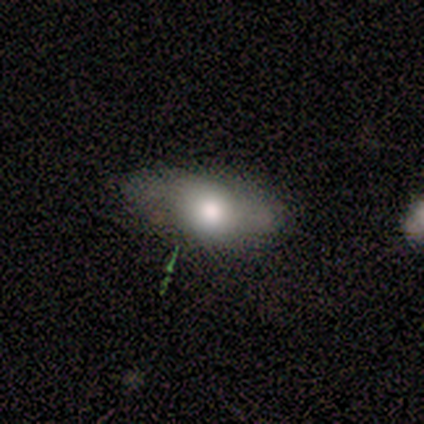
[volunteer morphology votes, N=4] Smooth or featured?
  - smooth: 75% *
  - featured or disk: 25%
  - star or artifact: 0%
How rounded?
  - in between: 100% *
  - round: 0%
  - cigar-shaped: 0%
Merging?
  - none: 50% * (tied)
  - minor disturbance: 50% * (tied)
  - major disturbance: 0%
  - merger: 0%